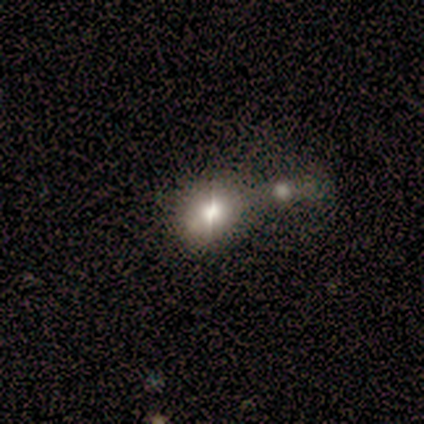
Overall: smooth (80%). How rounded: in between (75%). Merging: none (60%; minor disturbance 20%).